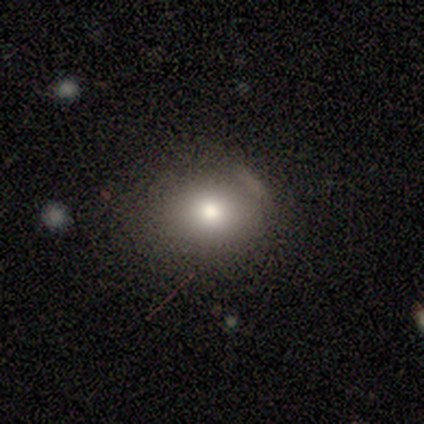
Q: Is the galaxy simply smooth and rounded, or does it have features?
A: smooth — 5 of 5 (100%).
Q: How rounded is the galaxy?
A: round — 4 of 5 (80%).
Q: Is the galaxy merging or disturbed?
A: minor disturbance — 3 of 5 (60%).